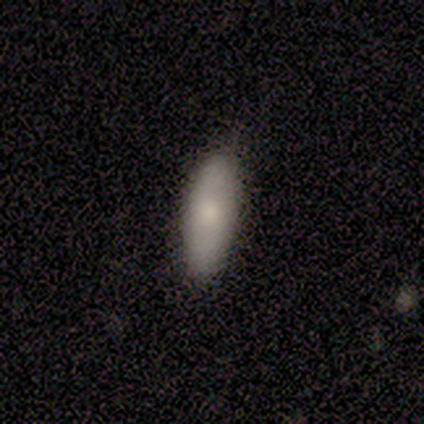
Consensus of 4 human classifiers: Smooth or featured? 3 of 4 (75%) said smooth. How rounded? 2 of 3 (67%) said in between. Merging? 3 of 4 (75%) said none.